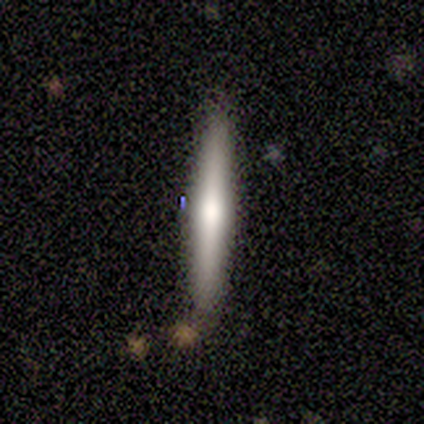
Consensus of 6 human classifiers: Volunteers were most divided on "smooth or featured" (2-way tie): smooth: 50%, featured or disk: 50%, star or artifact: 0%. More confident: how rounded — cigar-shaped (100%); merging — none (83%).